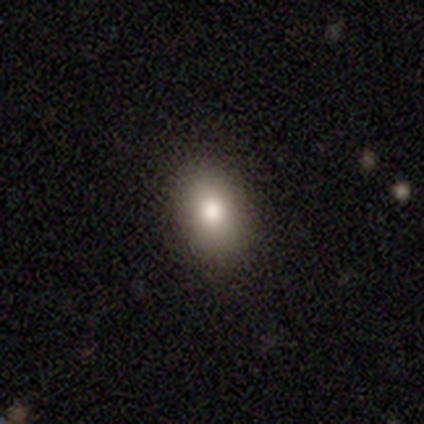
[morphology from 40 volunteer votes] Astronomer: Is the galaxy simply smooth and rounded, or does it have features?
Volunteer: smooth — 70%.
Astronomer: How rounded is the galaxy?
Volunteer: in between — 75%.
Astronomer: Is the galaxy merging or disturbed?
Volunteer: none — 91%.